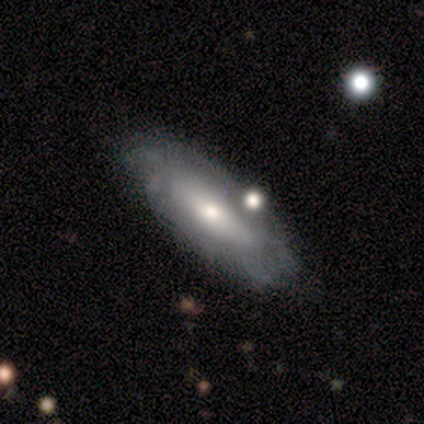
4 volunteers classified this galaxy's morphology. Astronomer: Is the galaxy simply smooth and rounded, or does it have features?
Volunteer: featured or disk — 100%.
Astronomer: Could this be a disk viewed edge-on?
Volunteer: no — 75%.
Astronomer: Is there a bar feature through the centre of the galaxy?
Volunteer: no — 100%.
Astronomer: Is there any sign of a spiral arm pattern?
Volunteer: yes — 67%.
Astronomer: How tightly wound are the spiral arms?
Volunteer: tight — 50%, tied with medium at 50%.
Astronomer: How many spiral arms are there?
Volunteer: can't tell — 100%.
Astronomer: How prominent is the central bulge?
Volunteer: moderate — 67%.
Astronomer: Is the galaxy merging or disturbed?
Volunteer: none — 100%.